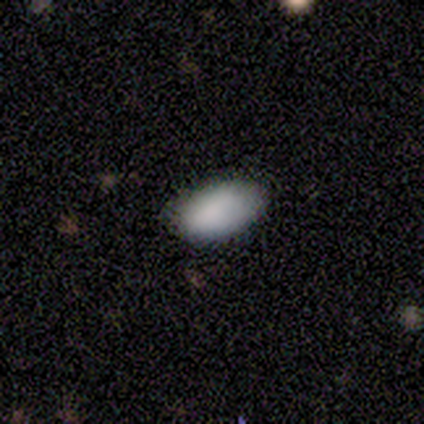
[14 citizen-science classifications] Smooth or featured: smooth — 93% (star or artifact — 7%)
How rounded: in between — 100%
Merging: none — 100%